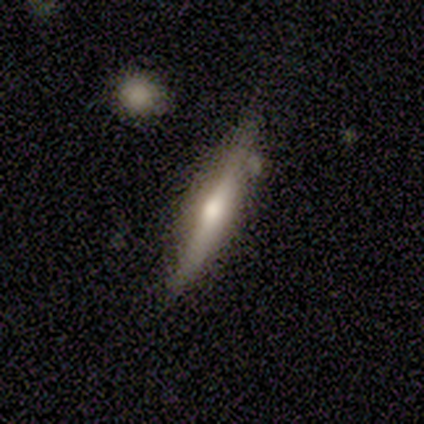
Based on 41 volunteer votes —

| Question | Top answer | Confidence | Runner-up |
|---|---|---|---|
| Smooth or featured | featured or disk | 73% | smooth (27%) |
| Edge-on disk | yes | 100% | — |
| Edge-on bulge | rounded | 87% | none (10%) |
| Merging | none | 73% | minor disturbance (27%) |